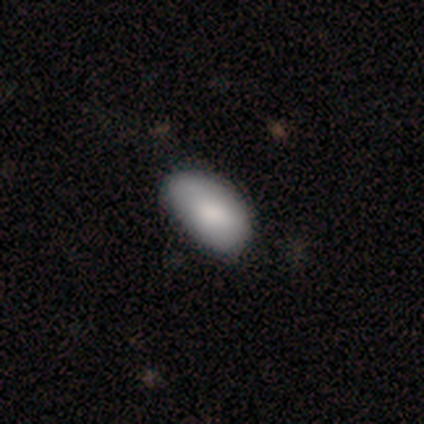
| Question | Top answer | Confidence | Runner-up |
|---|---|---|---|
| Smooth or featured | smooth | 80% | star or artifact (20%) |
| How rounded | in between | 100% | — |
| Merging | none | 100% | — |